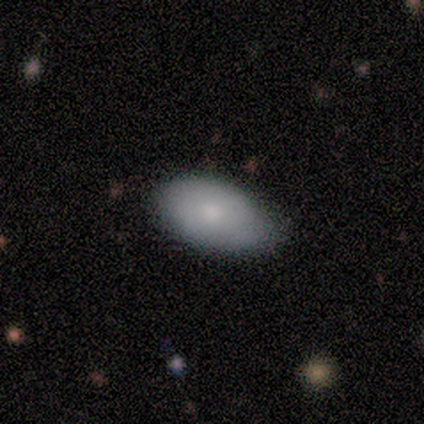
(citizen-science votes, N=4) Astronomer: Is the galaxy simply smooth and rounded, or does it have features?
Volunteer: smooth — 100%.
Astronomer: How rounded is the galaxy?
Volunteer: in between — 100%.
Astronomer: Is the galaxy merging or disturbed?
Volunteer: none — 75%.